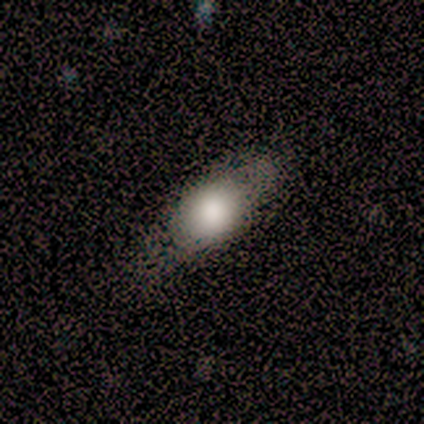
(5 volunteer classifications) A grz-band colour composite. It shows a smooth galaxy with no disk features (60%) that is in between round and cigar-shaped (100%). Merging: none (75%).